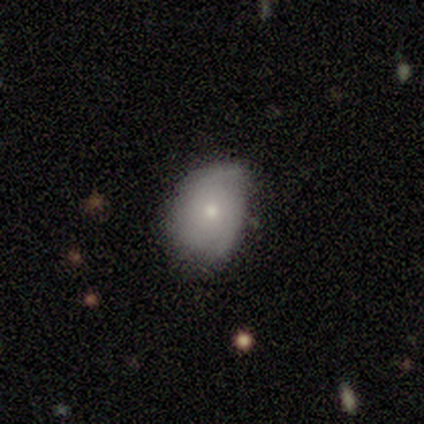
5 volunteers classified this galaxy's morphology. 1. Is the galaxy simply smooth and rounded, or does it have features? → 80% smooth, 20% star or artifact, 0% featured or disk.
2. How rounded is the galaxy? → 75% in between, 25% round, 0% cigar-shaped.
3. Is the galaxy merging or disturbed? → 50% none, 25% minor disturbance, 25% major disturbance, 0% merger.